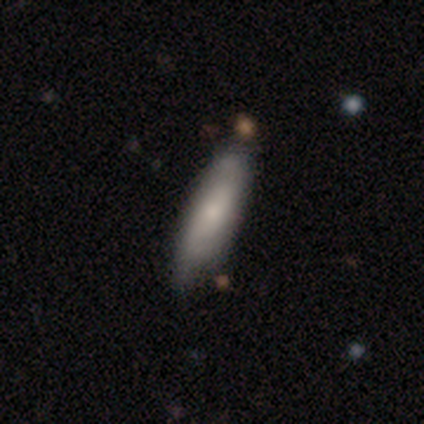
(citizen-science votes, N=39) Smooth or featured: smooth — 67% (featured or disk — 26%)
How rounded: cigar-shaped — 73% (in between — 27%)
Merging: none — 61% (minor disturbance — 19%)